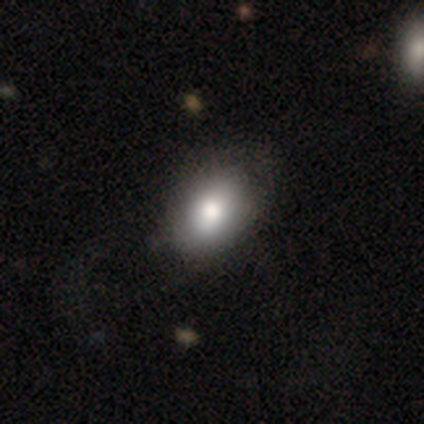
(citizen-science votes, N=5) Q: Smooth or featured?
A: smooth (60%); runner-up: featured or disk (20%)
Q: How rounded?
A: in between (100%)
Q: Merging?
A: minor disturbance (50%); runner-up: none (25%)